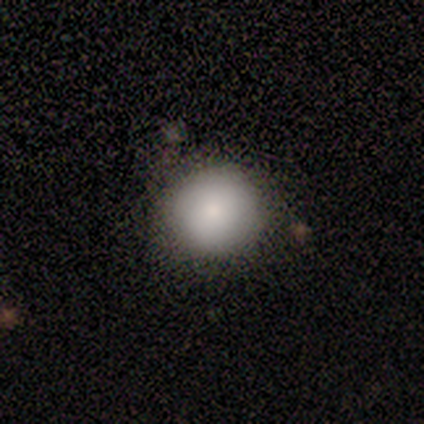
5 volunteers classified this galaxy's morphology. smooth_or_featured: smooth (p=0.80) [alt: featured or disk p=0.20]
how_rounded: round (p=1.00)
merging: none (p=0.40) [tied with: minor disturbance p=0.40]